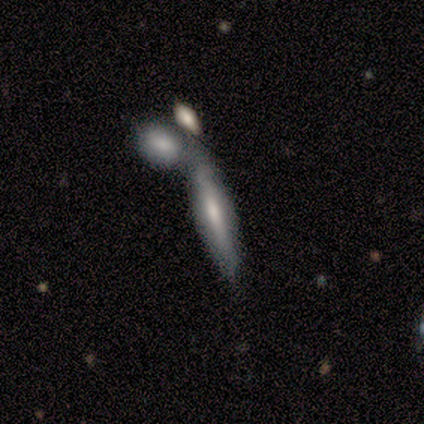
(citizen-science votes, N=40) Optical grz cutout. It shows a featured or disk galaxy (50%) viewed edge-on (85%) with a boxy central bulge (59%). Merging: merger (61%).